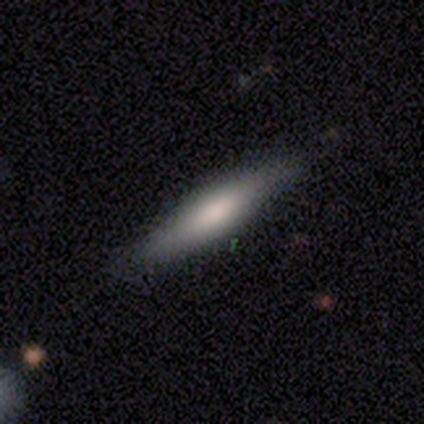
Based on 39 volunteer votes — Volunteers were most divided on "smooth or featured": smooth: 62%, featured or disk: 33%, star or artifact: 5%. More confident: merging — none (92%); how rounded — cigar-shaped (83%).